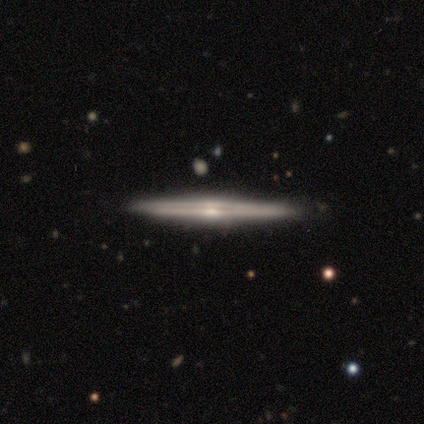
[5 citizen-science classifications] Smooth or featured: featured or disk — 100%
Edge-on disk: yes — 100%
Edge-on bulge: rounded — 80% (none — 20%)
Merging: none — 100%